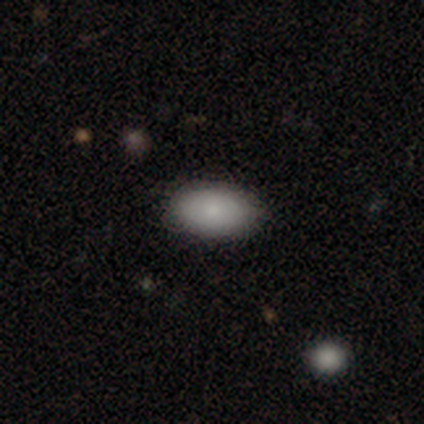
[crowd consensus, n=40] Q: Smooth or featured?
A: smooth (90%); runner-up: featured or disk (5%)
Q: How rounded?
A: in between (89%); runner-up: round (8%)
Q: Merging?
A: none (87%); runner-up: minor disturbance (11%)